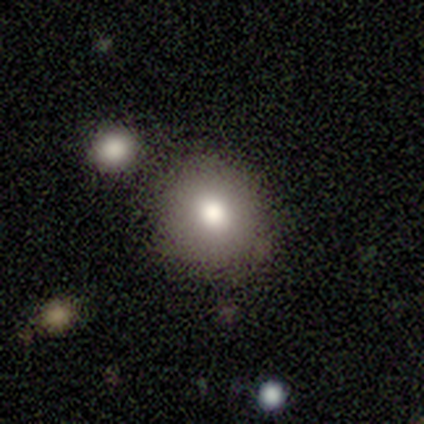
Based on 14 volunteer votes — This appears to be a smooth galaxy with no disk features (79%) that is round (100%). Merging: none (77%).